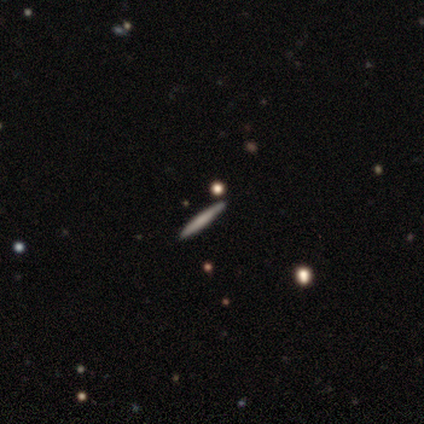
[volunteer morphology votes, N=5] A smooth galaxy with no disk features (60%) that is cigar-shaped (100%).

Vote fractions:
- Smooth or featured? smooth: 60% / star or artifact: 40% / featured or disk: 0%
- How rounded? cigar-shaped: 100% / round: 0% / in between: 0%
- Merging? none: 100% / minor disturbance: 0% / major disturbance: 0% / merger: 0%